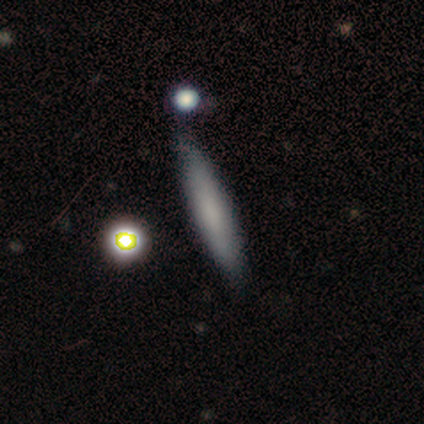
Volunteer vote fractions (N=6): Morphology: type=smooth (50%); roundness=cigar-shaped (67%); merging=none (60%).